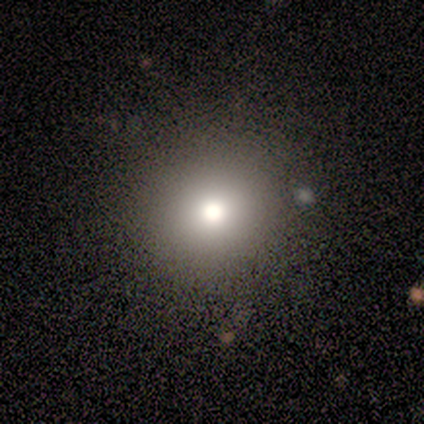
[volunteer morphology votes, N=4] Smooth or featured?
  - smooth: 100% *
  - featured or disk: 0%
  - star or artifact: 0%
How rounded?
  - round: 100% *
  - in between: 0%
  - cigar-shaped: 0%
Merging?
  - none: 100% *
  - minor disturbance: 0%
  - major disturbance: 0%
  - merger: 0%